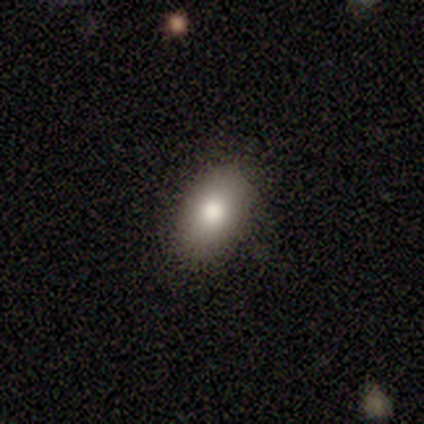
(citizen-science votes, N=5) Morphology: type=smooth (100%); roundness=in between (100%); merging=none (100%).